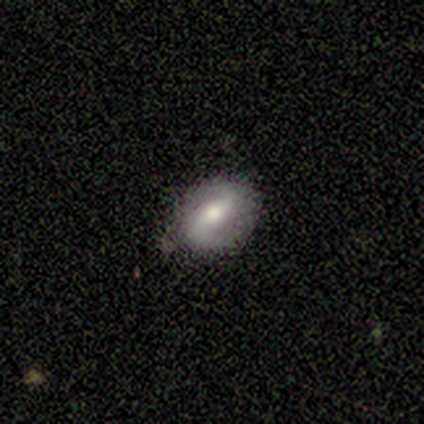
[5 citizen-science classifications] A featured or disk galaxy (60%) with a weak bar (67%), 2 (67%) loose (67%) spiral arms (100%) and a large central bulge (33%, tied with moderate and small). Merging: none (100%).